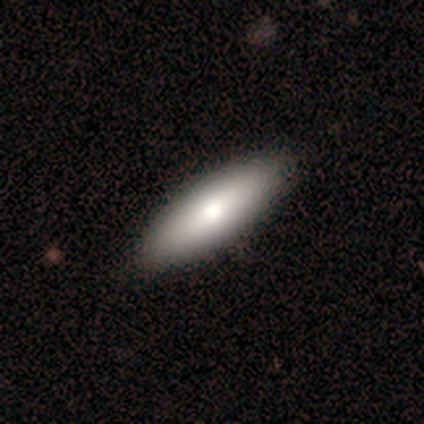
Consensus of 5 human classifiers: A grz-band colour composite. It shows a smooth galaxy with no disk features (80%) that is in between round and cigar-shaped (50%, tied with cigar-shaped). Merging: none (100%).